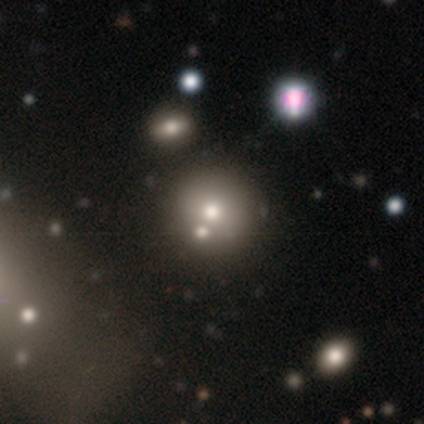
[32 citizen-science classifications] Volunteers were most divided on "smooth or featured": smooth: 75%, star or artifact: 19%, featured or disk: 6%. More confident: how rounded — round (92%); merging — merger (58%).